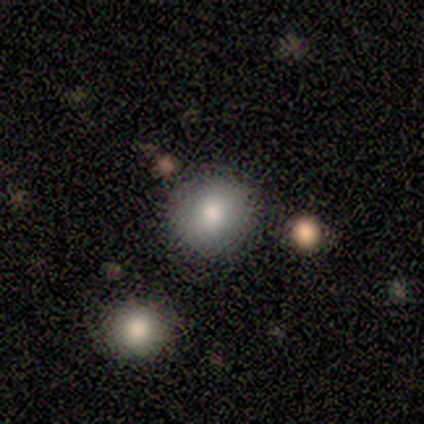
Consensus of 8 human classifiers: This is likely a smooth galaxy (75%). How rounded: likely round (67%). Merging: likely none (71%).